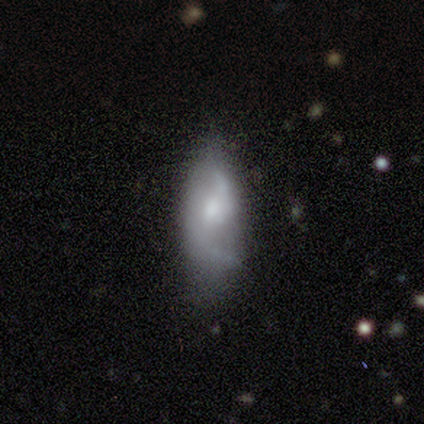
Volunteers were most divided on "smooth or featured": smooth: 67%, featured or disk: 33%, star or artifact: 0%. More confident: how rounded — in between (100%); merging — none (67%).